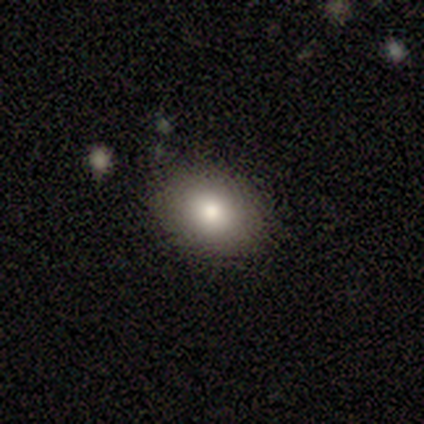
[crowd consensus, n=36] Overall: smooth (78%). How rounded: in between (68%; round 32%). Merging: none (94%).